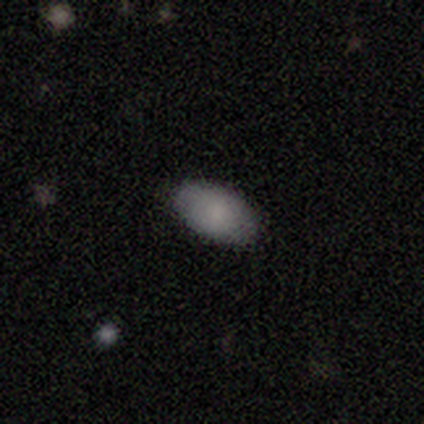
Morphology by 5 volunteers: A smooth galaxy with no disk features (100%) that is in between round and cigar-shaped (100%). Merging: none (100%).